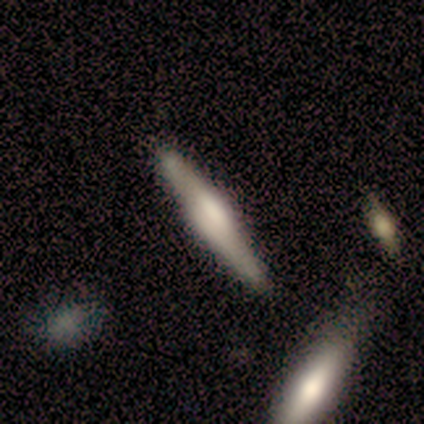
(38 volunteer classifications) This is likely a featured or disk galaxy (66%). It is clearly viewed edge-on (96%). Edge-on bulge: likely rounded (62%). Merging: clearly none (81%).